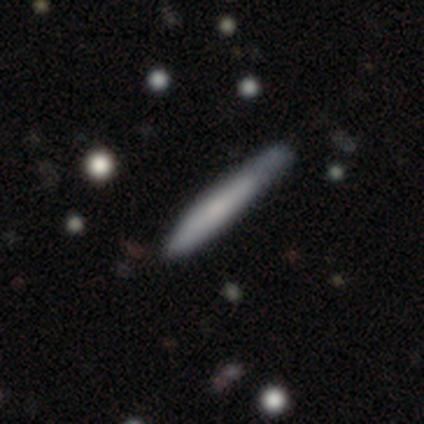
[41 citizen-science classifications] Smooth or featured? smooth (73%)
How rounded? cigar-shaped (100%)
Merging? none (46%)